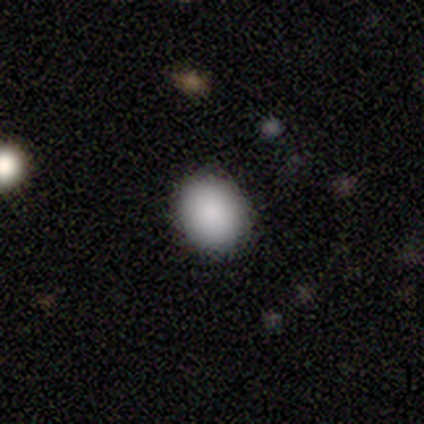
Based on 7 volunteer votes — Morphology: type=smooth (100%); roundness=in between (57%); merging=none (100%).